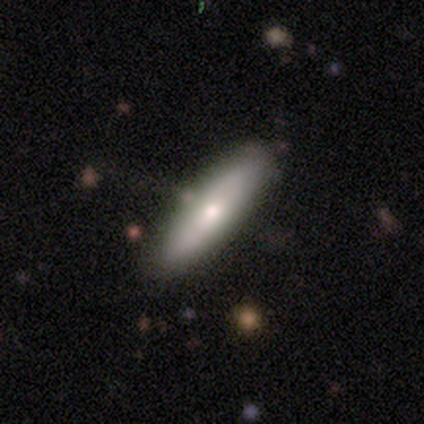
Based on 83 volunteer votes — smooth-or-featured: smooth: 57% | featured or disk: 36% | star or artifact: 7%
  how-rounded: cigar-shaped: 79% | in between: 21% | round: 0%
  merging: none: 84% | minor disturbance: 14% | major disturbance: 1% | merger: 0%